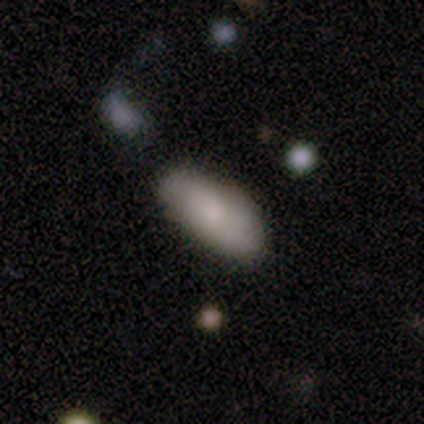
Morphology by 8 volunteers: This is possibly a smooth galaxy (50%). How rounded: clearly in between (100%). Merging: likely none (67%).